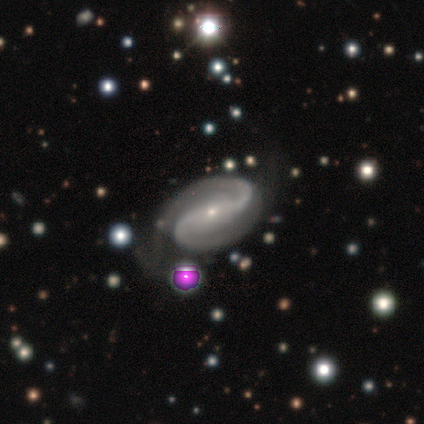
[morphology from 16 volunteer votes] Smooth or featured? 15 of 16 (94%) said featured or disk. Edge-on disk? 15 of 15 (100%) said no. Bar? 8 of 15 (53%) said no. Spiral arms? 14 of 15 (93%) said yes. Spiral winding? 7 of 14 (50%) said medium. Spiral arm count? 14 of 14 (100%) said 2. Bulge size? 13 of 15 (87%) said small. Merging? 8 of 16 (50%) said none.